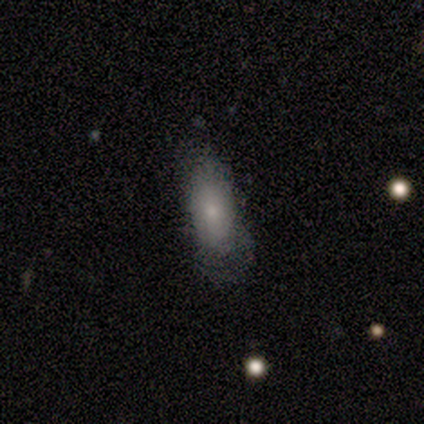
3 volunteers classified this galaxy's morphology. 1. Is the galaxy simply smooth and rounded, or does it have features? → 100% smooth, 0% featured or disk, 0% star or artifact.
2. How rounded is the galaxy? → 100% in between, 0% round, 0% cigar-shaped.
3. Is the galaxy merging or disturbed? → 33% none (tied), 33% minor disturbance (tied), 33% major disturbance (tied), 0% merger.